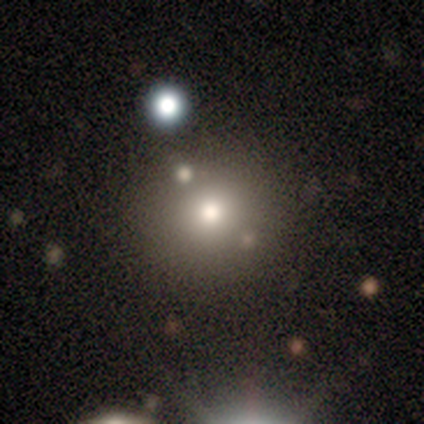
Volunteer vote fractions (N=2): Volunteers were most divided on "smooth or featured" (2-way tie): smooth: 50%, star or artifact: 50%, featured or disk: 0%. More confident: how rounded — round (100%); merging — none (100%).